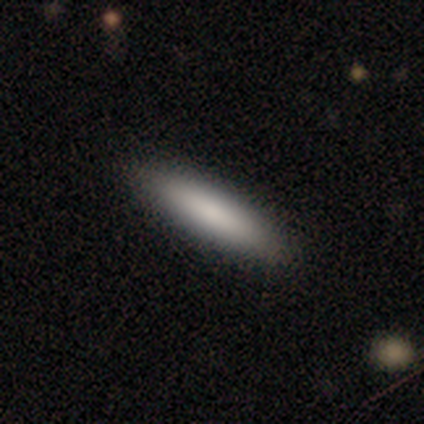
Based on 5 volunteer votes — Morphology: type=smooth (80%); roundness=cigar-shaped (75%); merging=none (100%).